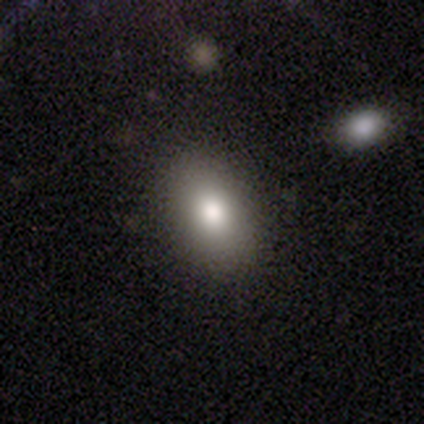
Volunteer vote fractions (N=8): Smooth or featured: smooth — 100%
How rounded: in between — 100%
Merging: none — 88% (major disturbance — 12%)